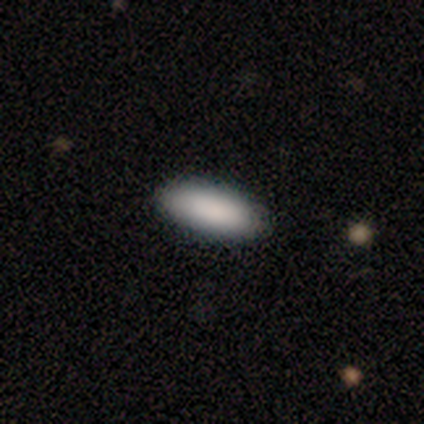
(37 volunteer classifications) Volunteers were most divided on "how rounded": in between: 79%, cigar-shaped: 21%, round: 0%. More confident: smooth or featured — smooth (92%); merging — none (89%).